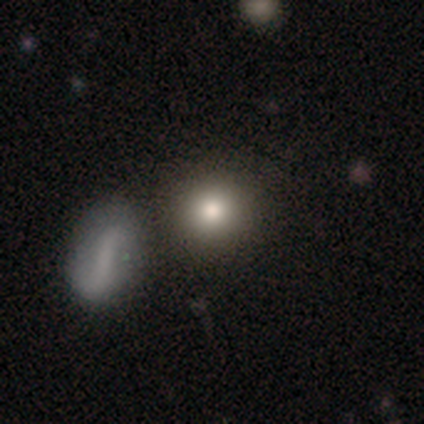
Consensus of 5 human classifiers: Smooth or featured? smooth (60%)
How rounded? round (100%)
Merging? none (75%)